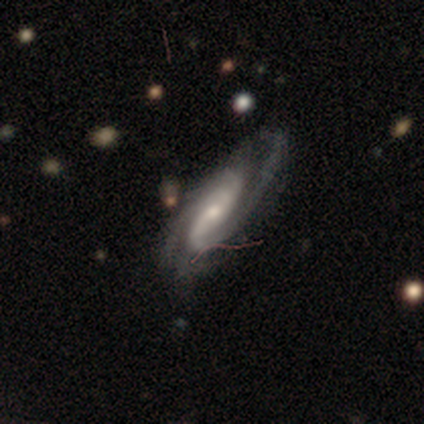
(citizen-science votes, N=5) smooth_or_featured: featured or disk (p=1.00)
disk_edge_on: no (p=1.00)
bar: strong (p=0.60) [alt: no p=0.40]
has_spiral_arms: yes (p=1.00)
spiral_winding: medium (p=0.60) [alt: tight p=0.20]
spiral_arm_count: 2 (p=1.00)
bulge_size: moderate (p=0.60) [alt: small p=0.40]
merging: none (p=1.00)